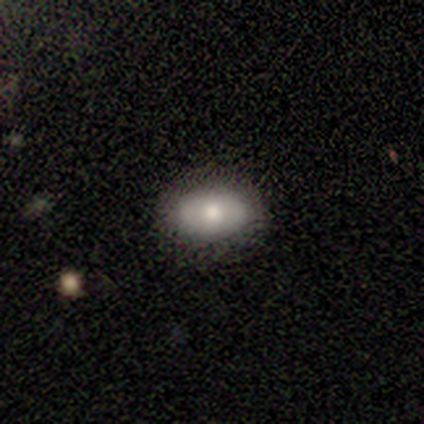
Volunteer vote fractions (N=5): Smooth or featured? 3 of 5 (60%) said smooth. How rounded? 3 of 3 (100%) said in between. Merging? 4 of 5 (80%) said none.